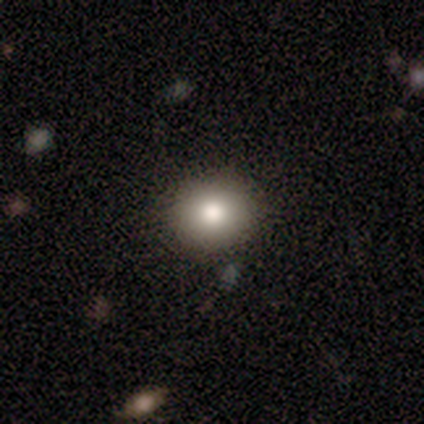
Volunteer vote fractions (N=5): Q: Smooth or featured?
A: smooth (100%)
Q: How rounded?
A: in between (60%); runner-up: round (40%)
Q: Merging?
A: none (100%)